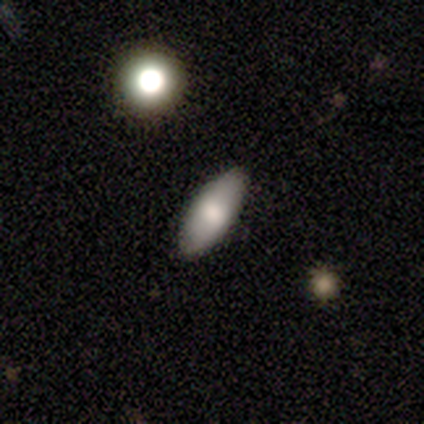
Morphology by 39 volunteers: Volunteers were most divided on "smooth or featured": smooth: 59%, featured or disk: 26%, star or artifact: 15%. More confident: merging — none (97%); how rounded — in between (83%).